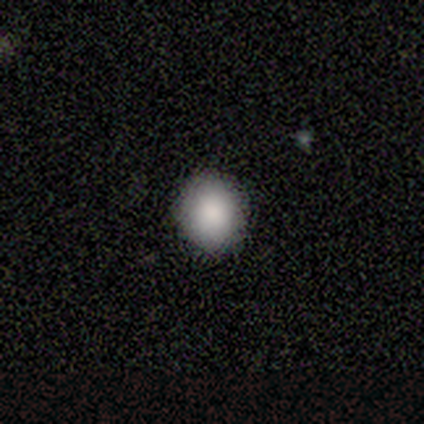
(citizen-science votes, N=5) smooth_or_featured: smooth (p=0.80) [alt: star or artifact p=0.20]
how_rounded: round (p=1.00)
merging: none (p=1.00)